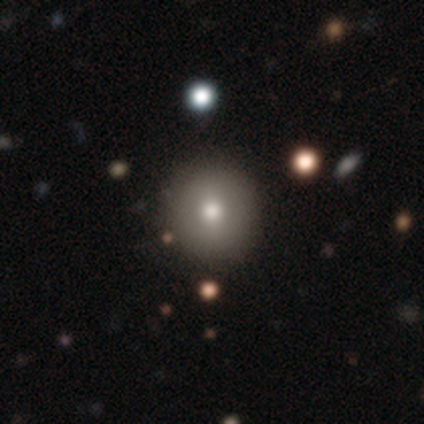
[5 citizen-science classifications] smooth_or_featured: smooth (p=0.60) [alt: featured or disk p=0.20]
how_rounded: round (p=1.00)
merging: none (p=1.00)